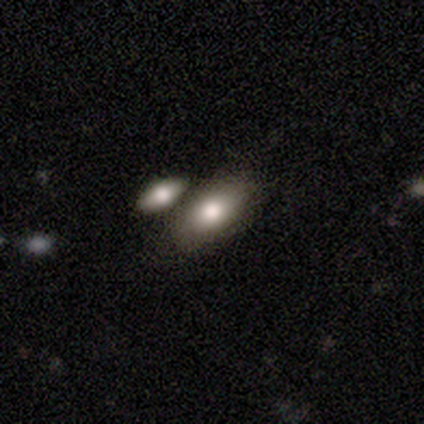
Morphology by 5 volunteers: A smooth galaxy with no disk features (80%) that is in between round and cigar-shaped (100%).

Vote fractions:
- Smooth or featured? smooth: 80% / featured or disk: 20% / star or artifact: 0%
- How rounded? in between: 100% / round: 0% / cigar-shaped: 0%
- Merging? none: 100% / minor disturbance: 0% / major disturbance: 0% / merger: 0%